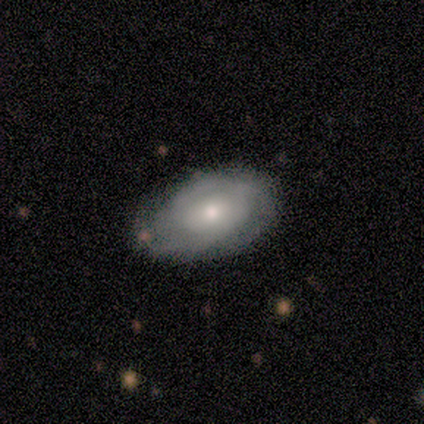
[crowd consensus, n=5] Smooth or featured: featured or disk — 60% (smooth — 40%)
Edge-on disk: no — 100%
Bar: no — 67% (weak — 33%)
Spiral arms: yes — 67% (no — 33%)
Spiral winding: tight — 50% (tied with medium — 50%)
Spiral arm count: 2 — 100%
Bulge size: moderate — 67% (small — 33%)
Merging: minor disturbance — 60% (none — 40%)